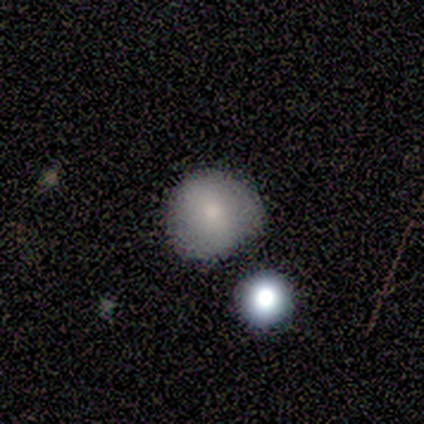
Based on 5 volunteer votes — Morphology: type=smooth (100%); roundness=round (100%); merging=none (60%).